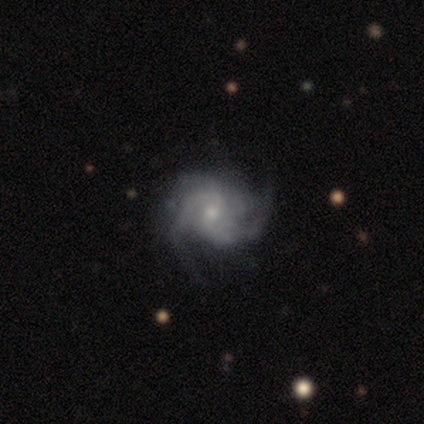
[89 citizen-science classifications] A featured or disk galaxy (87%) with no bar (57%), 2 (32%) medium (53%) spiral arms (100%) and a small central bulge (62%). Merging: none (69%).